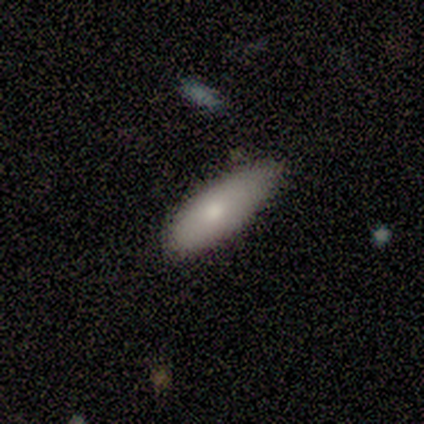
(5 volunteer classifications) smooth_or_featured: smooth (p=0.80) [alt: featured or disk p=0.20]
how_rounded: in between (p=0.50) [tied with: cigar-shaped p=0.50]
merging: minor disturbance (p=0.60) [alt: none p=0.40]